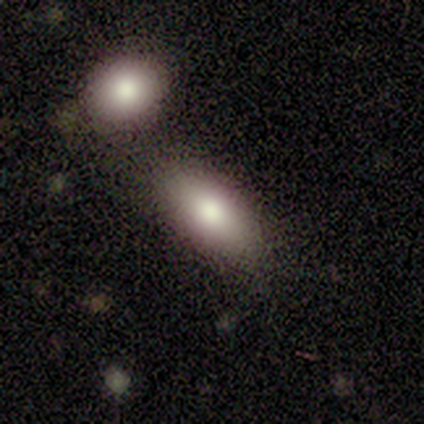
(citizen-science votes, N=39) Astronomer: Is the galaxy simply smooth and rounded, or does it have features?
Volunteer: smooth — 90%.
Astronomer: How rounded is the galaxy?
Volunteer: in between — 94%.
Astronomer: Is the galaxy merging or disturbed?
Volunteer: none — 64%.